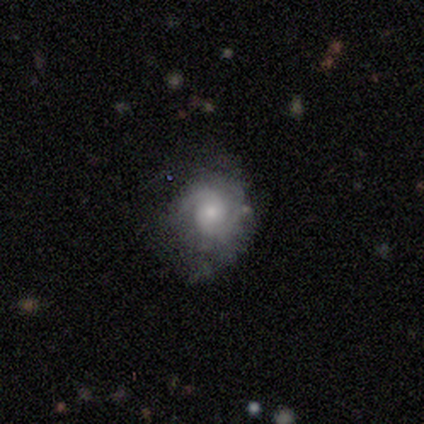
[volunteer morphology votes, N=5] Q: Smooth or featured?
A: featured or disk (80%); runner-up: star or artifact (20%)
Q: Edge-on disk?
A: no (100%)
Q: Bar?
A: no (75%); runner-up: weak (25%)
Q: Spiral arms?
A: yes (100%)
Q: Spiral winding?
A: medium (50%); tied with: loose (50%)
Q: Spiral arm count?
A: 2 (100%)
Q: Bulge size?
A: moderate (50%); runner-up: large (25%)
Q: Merging?
A: none (75%); runner-up: major disturbance (25%)